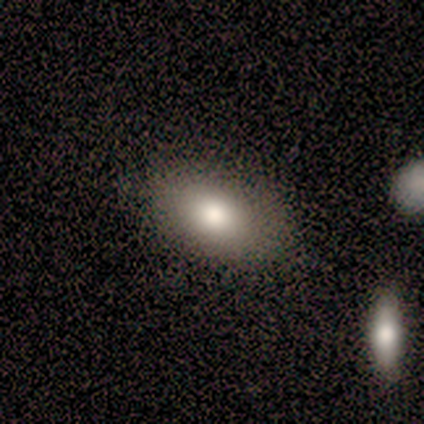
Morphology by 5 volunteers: Smooth or featured? 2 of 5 (40%, tied with star or artifact) said smooth. How rounded? 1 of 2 (50%, tied with in between) said round. Merging? 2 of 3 (67%) said none.